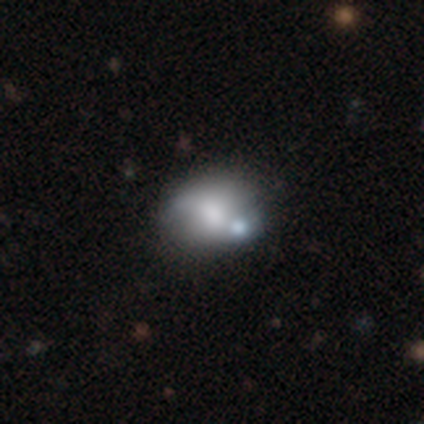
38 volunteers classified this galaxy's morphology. smooth_or_featured: smooth (p=0.55) [alt: featured or disk p=0.37]
how_rounded: in between (p=0.67) [alt: round p=0.33]
merging: merger (p=0.37) [alt: none p=0.23]